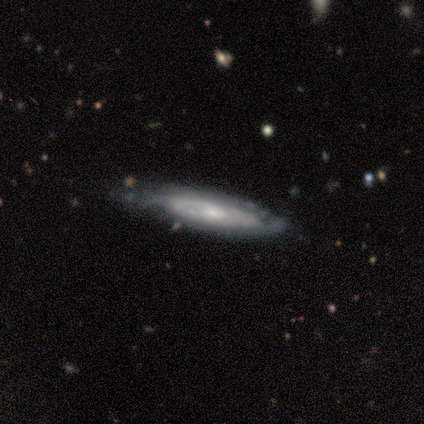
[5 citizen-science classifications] This appears to be a featured or disk galaxy (40%, tied with star or artifact) with no bar (100%), medium (100%) spiral arms (100%) and a moderate central bulge (100%). Merging: none (67%).